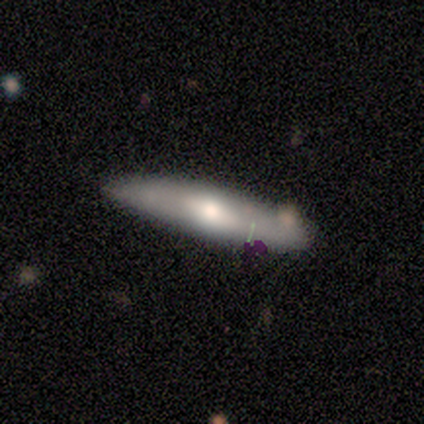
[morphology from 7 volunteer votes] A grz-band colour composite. It shows a featured or disk galaxy (71%) viewed edge-on (80%) with a rounded central bulge (100%). Merging: none (67%).